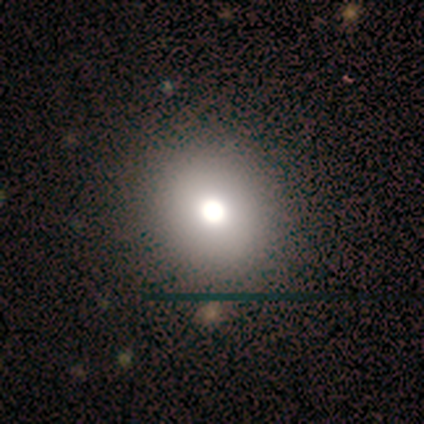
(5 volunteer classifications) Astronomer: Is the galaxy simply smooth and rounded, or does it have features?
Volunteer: smooth — 80%.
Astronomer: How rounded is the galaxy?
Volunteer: round — 100%.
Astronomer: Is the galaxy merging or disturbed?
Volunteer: none — 100%.